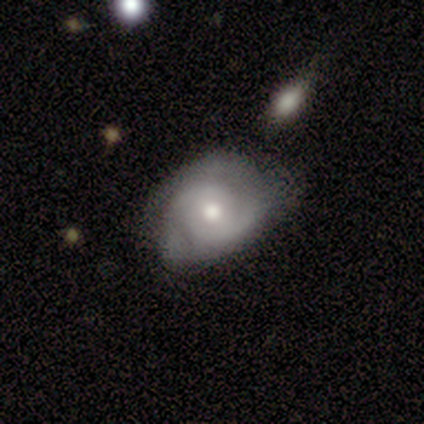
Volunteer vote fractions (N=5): A featured or disk galaxy (80%) with no bar (75%), 2 (50%) tight (50%, tied with medium) spiral arms (100%) and a moderate central bulge (75%). Merging: none (40%, tied with minor disturbance).